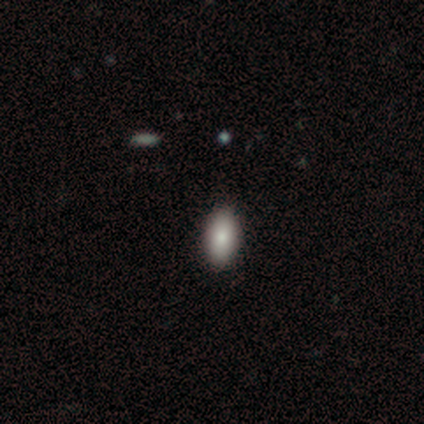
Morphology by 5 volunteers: smooth 40% (tied), featured or disk 40% (tied), star or artifact 20%. Down the decision tree: how rounded — in between (100%); merging — none (75%).